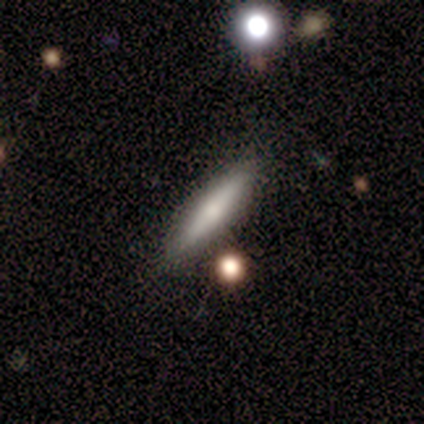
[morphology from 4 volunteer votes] Smooth or featured? 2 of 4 (50%, tied with featured or disk) said smooth. How rounded? 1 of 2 (50%, tied with cigar-shaped) said in between. Merging? 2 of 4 (50%) said none.